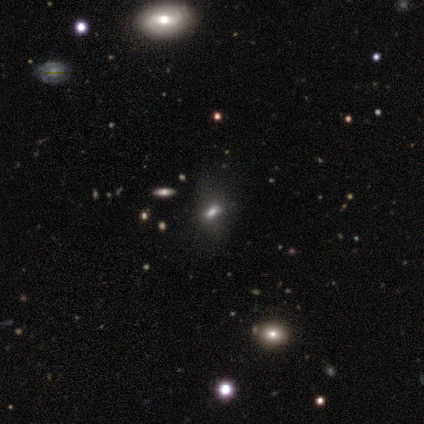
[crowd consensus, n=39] This is possibly a smooth galaxy (56%). How rounded: clearly in between (82%). Merging: likely none (67%).